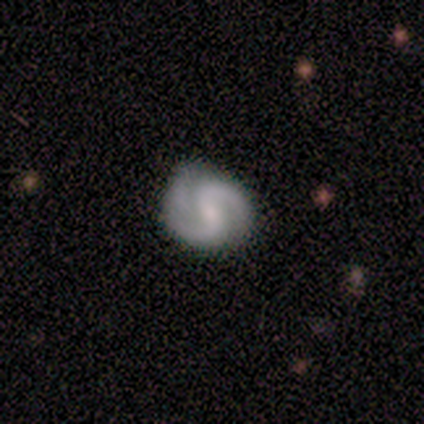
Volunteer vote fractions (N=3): This is likely a featured or disk galaxy (67%). It is clearly not viewed edge-on (100%). Bar: possibly weak (50%, tied with no). Spiral arm pattern: clearly yes (100%). Spiral arm count: possibly 2 (50%, tied with 3). Spiral winding: clearly medium (100%). Central bulge: possibly moderate (50%, tied with small). Merging: likely minor disturbance (67%).